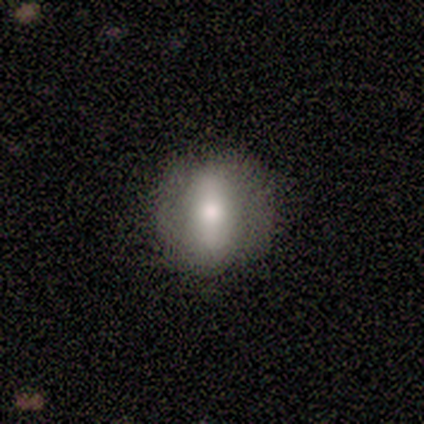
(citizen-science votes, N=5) smooth-or-featured: smooth: 60% | featured or disk: 40% | star or artifact: 0%
  how-rounded: round: 100% | in between: 0% | cigar-shaped: 0%
  merging: none: 100% | minor disturbance: 0% | major disturbance: 0% | merger: 0%